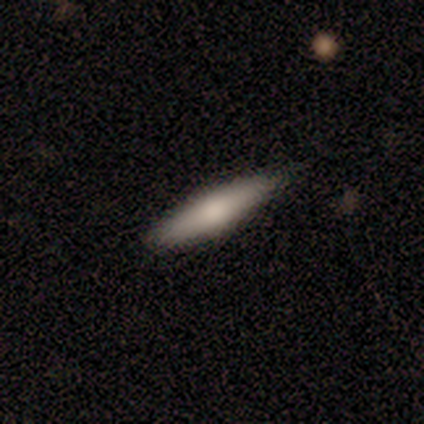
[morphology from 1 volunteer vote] Overall: smooth (100%). How rounded: in between (100%). Merging: minor disturbance (100%).